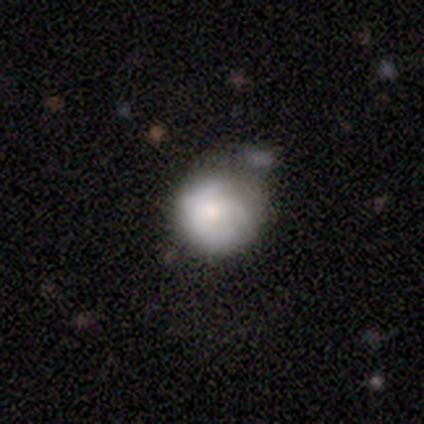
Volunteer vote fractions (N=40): Overall: smooth (60%; featured or disk 35%). How rounded: round (96%). Merging: minor disturbance (47%; none 24%).